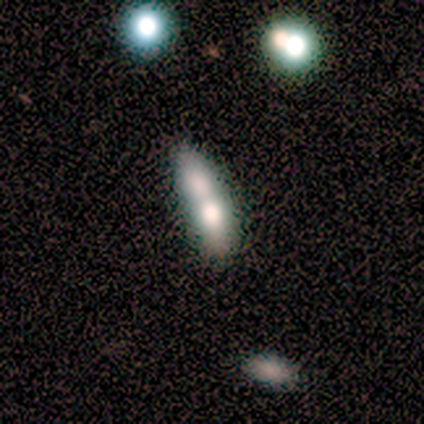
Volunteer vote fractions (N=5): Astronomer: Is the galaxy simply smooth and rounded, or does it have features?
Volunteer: smooth — 40%, tied with featured or disk at 40%.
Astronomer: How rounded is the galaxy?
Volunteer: cigar-shaped — 100%.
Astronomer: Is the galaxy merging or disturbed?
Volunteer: merger — 75%.